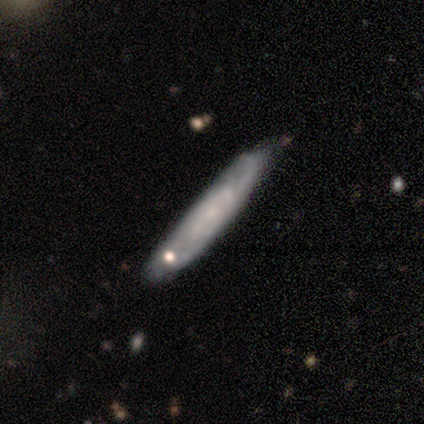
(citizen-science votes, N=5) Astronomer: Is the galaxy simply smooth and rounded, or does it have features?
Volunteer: featured or disk — 100%.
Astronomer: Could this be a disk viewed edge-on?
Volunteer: no — 60% (runner-up: yes, 40%).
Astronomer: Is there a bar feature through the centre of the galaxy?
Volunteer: no — 100%.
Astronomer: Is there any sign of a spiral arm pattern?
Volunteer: yes — 67%.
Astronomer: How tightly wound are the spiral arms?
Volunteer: tight — 50%, tied with medium at 50%.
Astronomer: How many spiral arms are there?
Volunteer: can't tell — 100%.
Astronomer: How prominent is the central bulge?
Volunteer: small — 67%.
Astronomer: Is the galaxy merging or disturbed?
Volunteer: none — 80%.